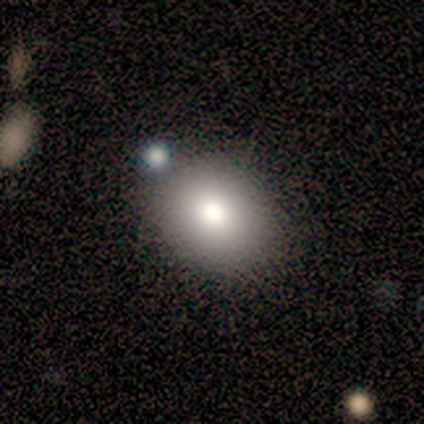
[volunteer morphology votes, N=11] Smooth or featured?
  - smooth: 64% *
  - featured or disk: 36%
  - star or artifact: 0%
How rounded?
  - in between: 57% *
  - round: 43%
  - cigar-shaped: 0%
Merging?
  - none: 91% *
  - minor disturbance: 9%
  - major disturbance: 0%
  - merger: 0%